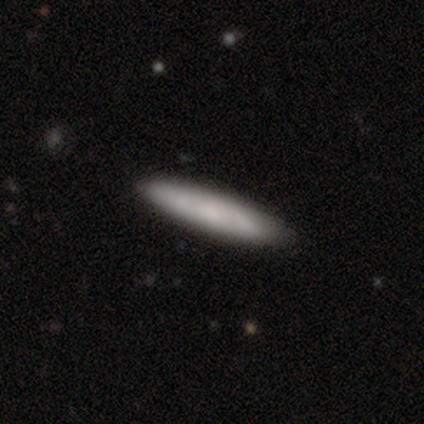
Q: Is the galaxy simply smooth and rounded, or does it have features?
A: smooth — 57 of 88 (65%).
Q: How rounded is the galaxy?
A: cigar-shaped — 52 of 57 (91%).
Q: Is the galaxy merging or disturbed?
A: none — 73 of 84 (87%).